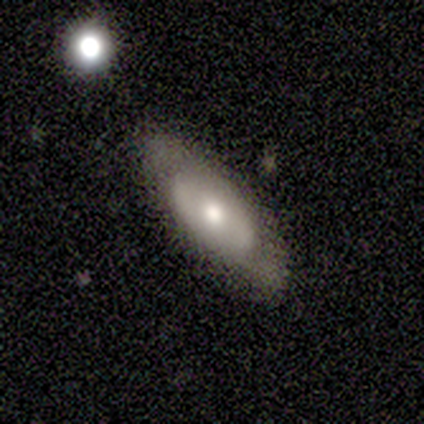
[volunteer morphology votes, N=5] Q: Smooth or featured?
A: smooth (60%); runner-up: featured or disk (40%)
Q: How rounded?
A: in between (67%); runner-up: cigar-shaped (33%)
Q: Merging?
A: none (100%)